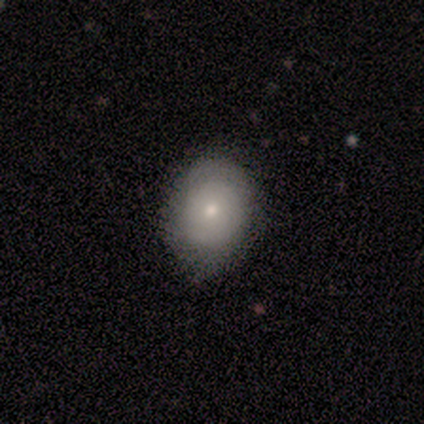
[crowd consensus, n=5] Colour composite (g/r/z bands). It shows a smooth galaxy with no disk features (60%) that is round (67%). Merging: none (80%).